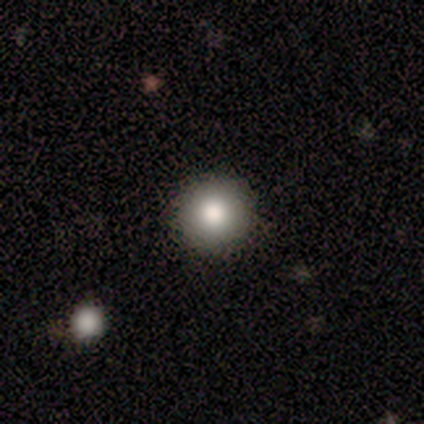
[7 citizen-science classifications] Smooth or featured? 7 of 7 (100%) said smooth. How rounded? 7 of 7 (100%) said round. Merging? 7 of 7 (100%) said none.